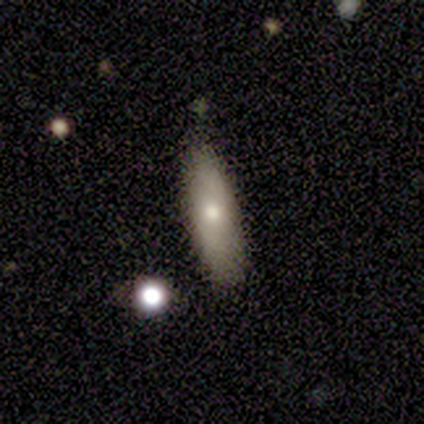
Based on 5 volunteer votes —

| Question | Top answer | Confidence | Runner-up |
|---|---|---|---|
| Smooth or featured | smooth | 60% | featured or disk (40%) |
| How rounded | cigar-shaped | 67% | in between (33%) |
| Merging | none | 60% | minor disturbance (40%) |